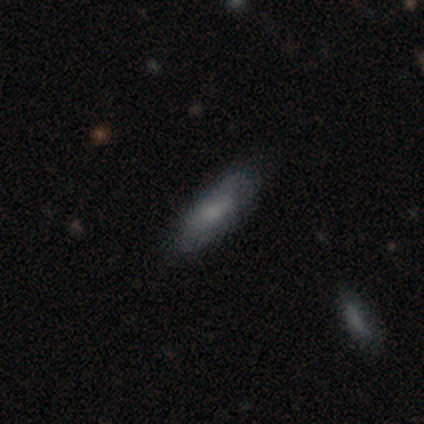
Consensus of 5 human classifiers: Smooth or featured? smooth (80%)
How rounded? in between (50%, tied with cigar-shaped)
Merging? none (80%)